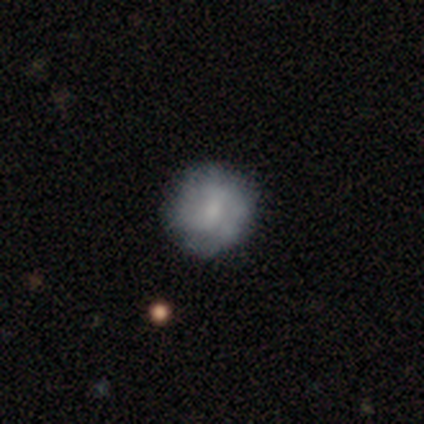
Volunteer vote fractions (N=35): Q: Smooth or featured?
A: smooth (57%); runner-up: featured or disk (34%)
Q: How rounded?
A: round (85%); runner-up: in between (15%)
Q: Merging?
A: none (75%); runner-up: minor disturbance (25%)